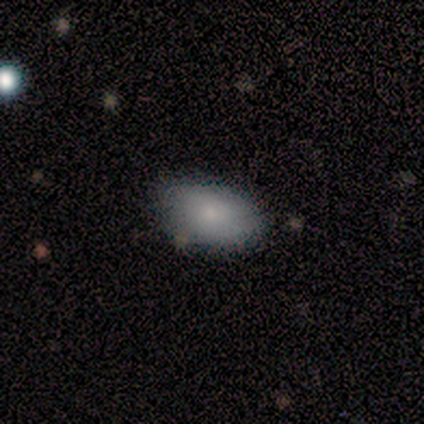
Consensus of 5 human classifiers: Smooth or featured: smooth — 80% (star or artifact — 20%)
How rounded: in between — 100%
Merging: none — 75% (minor disturbance — 25%)